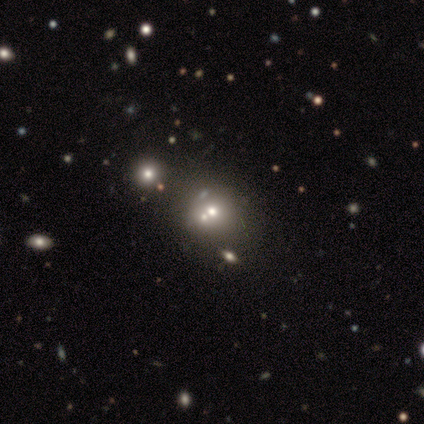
Volunteers were most divided on "merging" (2-way tie): none: 33%, merger: 33%, minor disturbance: 17%, major disturbance: 17%. More confident: how rounded — round (100%); smooth or featured — smooth (71%).